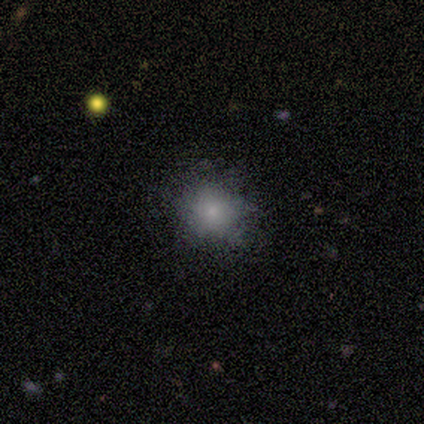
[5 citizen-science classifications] Smooth or featured? 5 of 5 (100%) said smooth. How rounded? 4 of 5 (80%) said round. Merging? 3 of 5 (60%) said none.